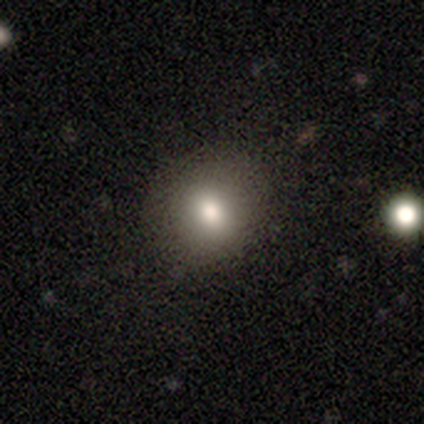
A smooth galaxy with no disk features (77%) that is round (67%). Merging: none (88%).